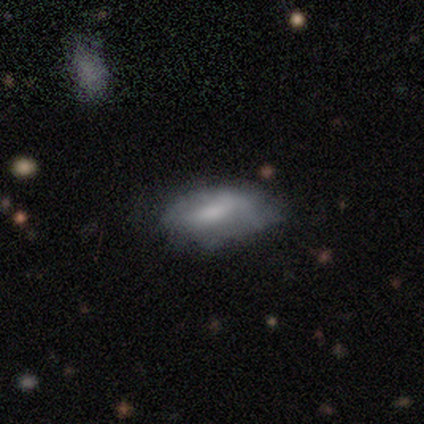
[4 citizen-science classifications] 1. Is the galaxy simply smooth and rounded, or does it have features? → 75% smooth, 25% featured or disk, 0% star or artifact.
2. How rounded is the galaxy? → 100% in between, 0% round, 0% cigar-shaped.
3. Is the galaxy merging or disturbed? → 50% minor disturbance (tied), 50% major disturbance (tied), 0% none, 0% merger.